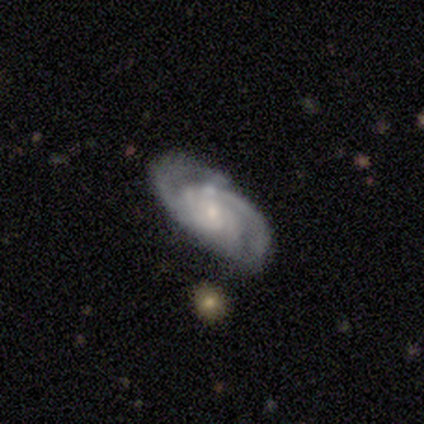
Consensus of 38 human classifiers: featured or disk 89%, smooth 11%, star or artifact 0%. Down the decision tree: edge-on disk — no (100%); bar — no (74%); spiral arms — yes (100%); spiral arm count — 2 (44%); spiral winding — tight (56%); bulge size — small (71%); merging — none (71%).